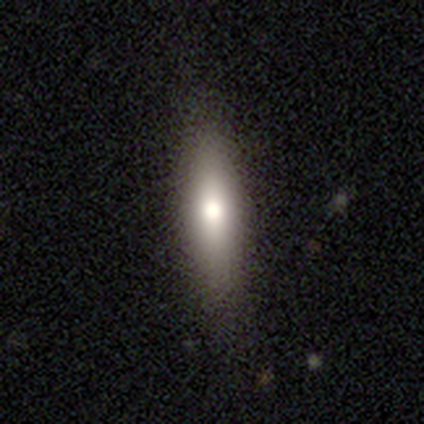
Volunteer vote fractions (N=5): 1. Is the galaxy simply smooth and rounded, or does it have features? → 60% smooth, 40% featured or disk, 0% star or artifact.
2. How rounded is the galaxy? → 67% in between, 33% cigar-shaped, 0% round.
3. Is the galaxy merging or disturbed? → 80% none, 20% minor disturbance, 0% major disturbance, 0% merger.